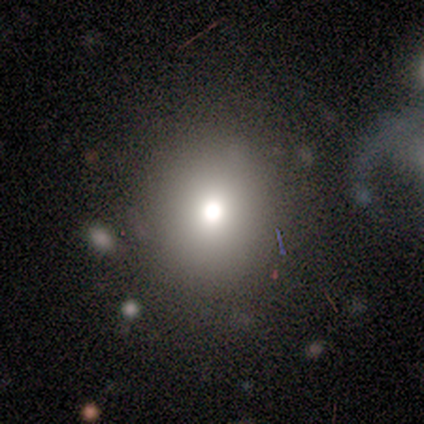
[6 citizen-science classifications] A smooth galaxy with no disk features (83%) that is round (100%).

Vote fractions:
- Smooth or featured? smooth: 83% / featured or disk: 17% / star or artifact: 0%
- How rounded? round: 100% / in between: 0% / cigar-shaped: 0%
- Merging? none: 67% / minor disturbance: 33% / major disturbance: 0% / merger: 0%